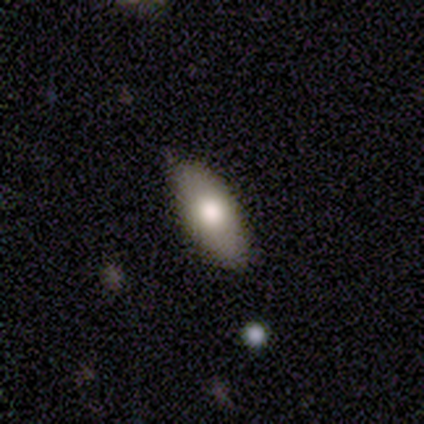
Volunteers were most divided on "how rounded": in between: 77%, cigar-shaped: 20%, round: 3%. More confident: merging — none (89%); smooth or featured — smooth (79%).